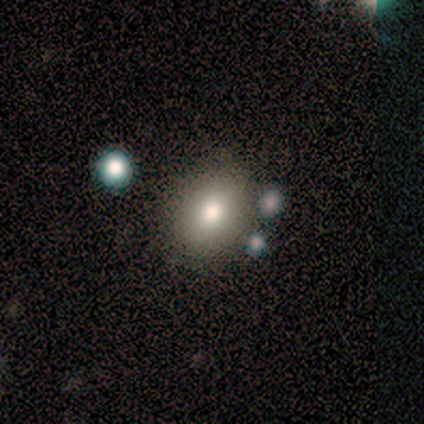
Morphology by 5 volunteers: Q: Smooth or featured?
A: smooth (80%); runner-up: star or artifact (20%)
Q: How rounded?
A: in between (100%)
Q: Merging?
A: none (100%)